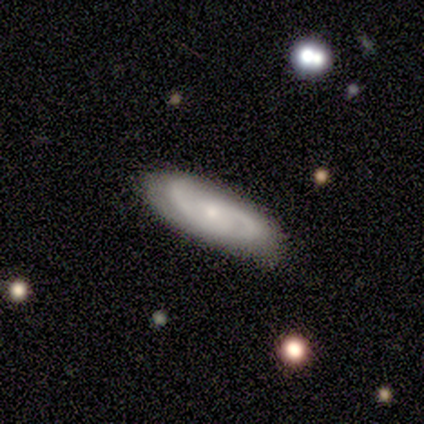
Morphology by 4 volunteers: type=featured or disk (75%); edge-on=no (100%); bar=no (100%); spiral arms=yes (100%); winding=medium (67%); arm count=2 (100%); bulge=small (100%); merging=none (100%).